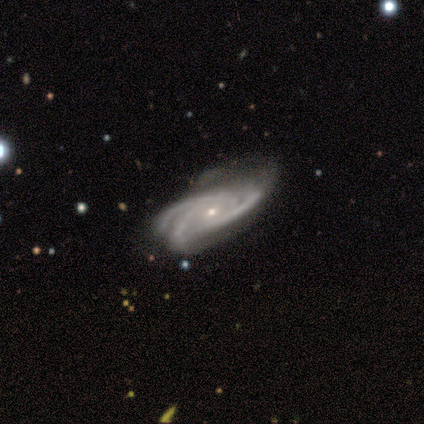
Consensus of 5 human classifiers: A featured or disk galaxy (100%) with no bar (60%), 3 (80%) tight (60%) spiral arms (100%) and a small central bulge (80%). Merging: none (80%).